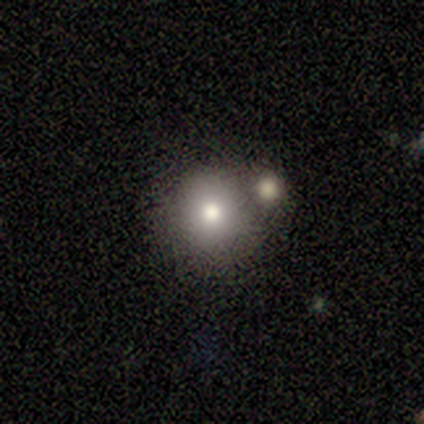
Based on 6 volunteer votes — Smooth or featured? smooth (83%)
How rounded? round (100%)
Merging? merger (60%)